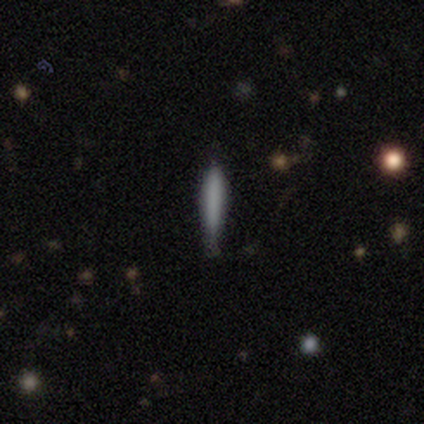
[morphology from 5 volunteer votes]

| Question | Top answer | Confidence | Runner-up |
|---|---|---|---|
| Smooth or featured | smooth | 100% | — |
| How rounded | cigar-shaped | 100% | — |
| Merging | none | 80% | minor disturbance (20%) |